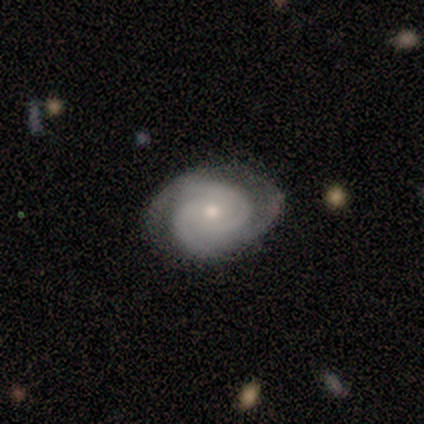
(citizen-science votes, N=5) Smooth or featured?
  - featured or disk: 100% *
  - smooth: 0%
  - star or artifact: 0%
Edge-on disk?
  - no: 100% *
  - yes: 0%
Bar?
  - no: 80% *
  - weak: 20%
  - strong: 0%
Spiral arms?
  - yes: 100% *
  - no: 0%
Spiral winding?
  - tight: 80% *
  - loose: 20%
  - medium: 0%
Spiral arm count?
  - 3: 60% *
  - 2: 40%
  - 1: 0%
  - 4: 0%
  - more than 4: 0%
  - can't tell: 0%
Bulge size?
  - small: 60% *
  - moderate: 40%
  - dominant: 0%
  - large: 0%
  - none: 0%
Merging?
  - none: 80% *
  - minor disturbance: 20%
  - major disturbance: 0%
  - merger: 0%